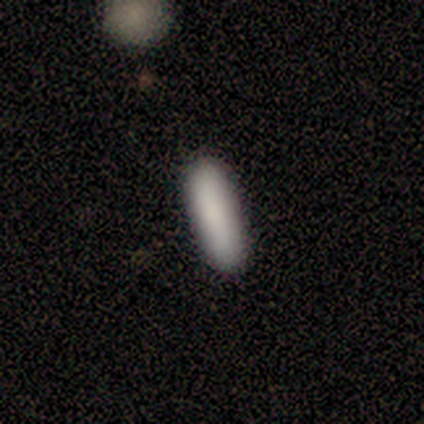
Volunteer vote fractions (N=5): smooth-or-featured: smooth: 100% | featured or disk: 0% | star or artifact: 0%
  how-rounded: cigar-shaped: 100% | round: 0% | in between: 0%
  merging: none: 100% | minor disturbance: 0% | major disturbance: 0% | merger: 0%